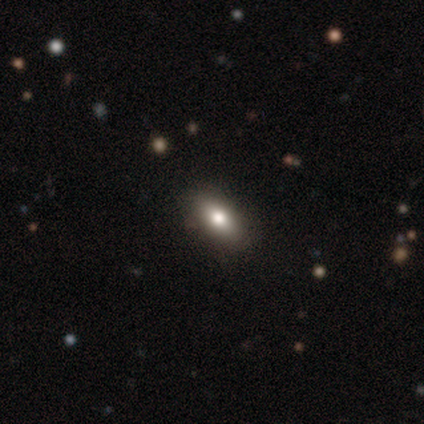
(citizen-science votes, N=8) Smooth or featured: smooth — 88% (star or artifact — 12%)
How rounded: in between — 71% (cigar-shaped — 29%)
Merging: none — 71% (minor disturbance — 29%)